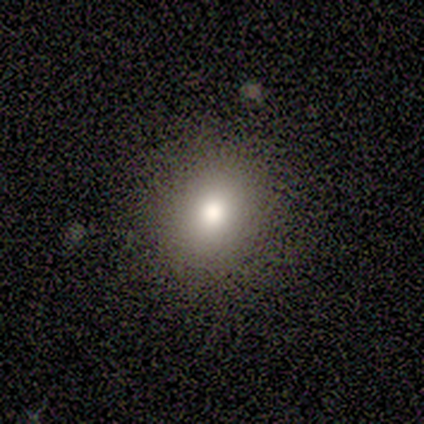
smooth 75%, featured or disk 25%, star or artifact 0%. Down the decision tree: how rounded — round (67%); merging — none (50%).